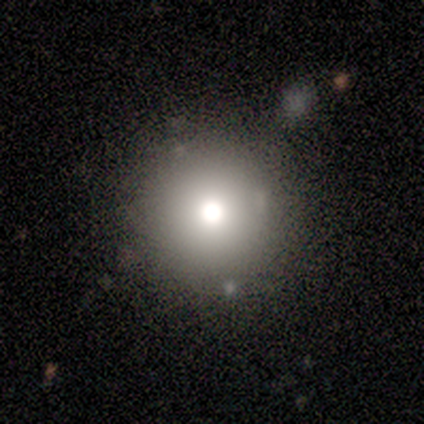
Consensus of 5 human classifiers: A smooth galaxy with no disk features (80%) that is round (100%). Merging: none (80%).